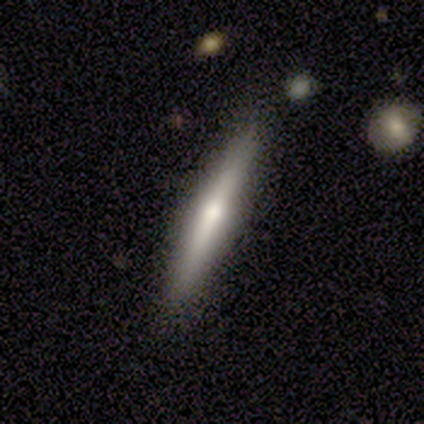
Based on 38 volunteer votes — This appears to be a smooth galaxy with no disk features (50%) that is cigar-shaped (95%). Merging: none (94%).